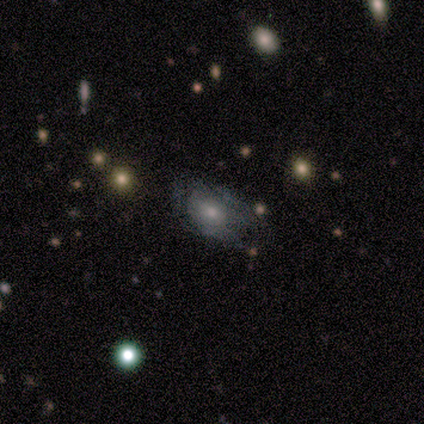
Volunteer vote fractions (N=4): Morphology: type=smooth (100%); roundness=in between (100%); merging=none (50%, tied with major disturbance).